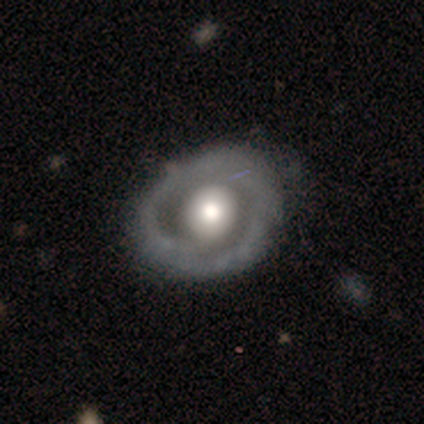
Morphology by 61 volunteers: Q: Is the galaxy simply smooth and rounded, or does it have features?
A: featured or disk — 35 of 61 (57%).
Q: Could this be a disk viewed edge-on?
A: no — 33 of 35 (94%).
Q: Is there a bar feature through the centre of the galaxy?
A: no — 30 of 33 (91%).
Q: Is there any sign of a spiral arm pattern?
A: no — 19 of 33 (58%).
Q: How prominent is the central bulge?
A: large — 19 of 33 (58%).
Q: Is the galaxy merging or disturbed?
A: none — 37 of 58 (64%).